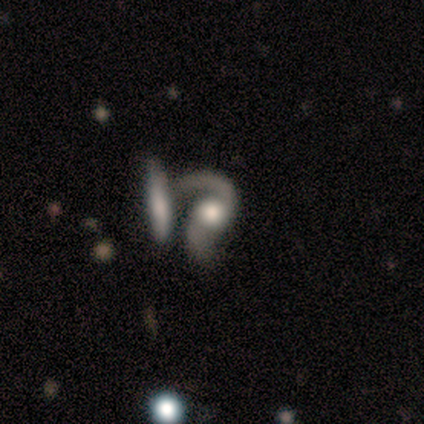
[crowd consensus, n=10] A featured or disk galaxy (100%) with no bar (70%), 2 (90%) loose (80%) spiral arms (100%) and a large central bulge (40%, tied with moderate).

Vote fractions:
- Smooth or featured? featured or disk: 100% / smooth: 0% / star or artifact: 0%
- Edge-on disk? no: 100% / yes: 0%
- Bar? no: 70% / weak: 20% / strong: 10%
- Spiral arms? yes: 100% / no: 0%
- Spiral winding? loose: 80% / medium: 20% / tight: 0%
- Spiral arm count? 2: 90% / 1: 10% / 3: 0% / 4: 0% / more than 4: 0% / can't tell: 0%
- Bulge size? large: 40% (tied) / moderate: 40% (tied) / dominant: 10% / none: 10% / small: 0%
- Merging? merger: 40% / none: 20% / minor disturbance: 20% / major disturbance: 20%